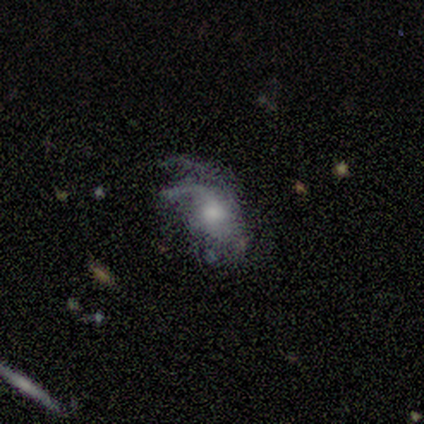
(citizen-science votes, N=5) Smooth or featured? featured or disk (80%)
Edge-on disk? no (100%)
Bar? no (75%)
Spiral arms? yes (75%)
Spiral winding? loose (67%)
Spiral arm count? 1 (33%, tied with 2 and can't tell)
Bulge size? moderate (50%)
Merging? major disturbance (75%)